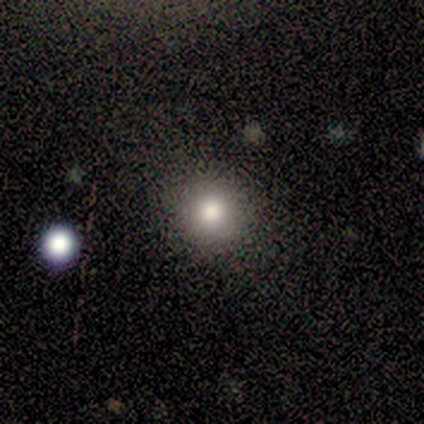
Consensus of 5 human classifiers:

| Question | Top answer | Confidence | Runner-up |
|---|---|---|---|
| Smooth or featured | smooth | 100% | — |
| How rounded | round | 100% | — |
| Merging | none | 100% | — |